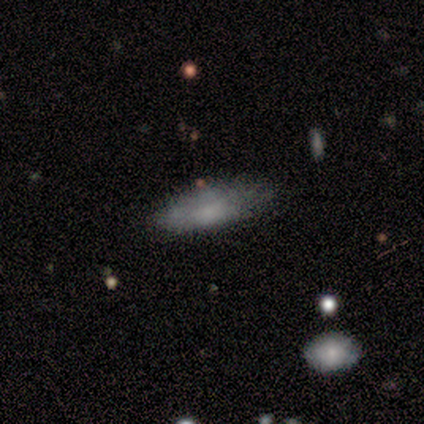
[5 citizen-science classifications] Smooth or featured? 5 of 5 (100%) said smooth. How rounded? 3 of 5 (60%) said cigar-shaped. Merging? 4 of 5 (80%) said minor disturbance.